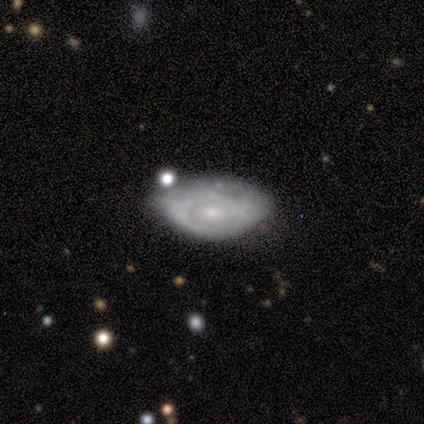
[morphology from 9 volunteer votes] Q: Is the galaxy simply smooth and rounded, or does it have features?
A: featured or disk — 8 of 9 (89%).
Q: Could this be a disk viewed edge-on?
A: no — 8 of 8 (100%).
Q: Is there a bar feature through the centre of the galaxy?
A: no — 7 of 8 (88%).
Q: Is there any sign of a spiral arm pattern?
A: yes — 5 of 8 (62%).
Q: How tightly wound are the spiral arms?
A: tight — 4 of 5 (80%).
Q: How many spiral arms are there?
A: can't tell — 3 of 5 (60%).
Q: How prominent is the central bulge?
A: small — 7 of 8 (88%).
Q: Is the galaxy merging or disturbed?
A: none — 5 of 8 (62%).